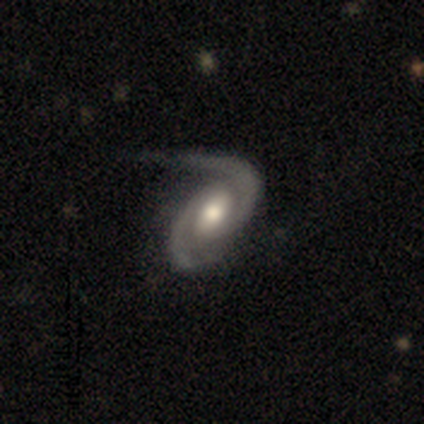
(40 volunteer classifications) A featured or disk galaxy (92%) with a weak bar (49%), 2 (95%) medium (54%) spiral arms (100%) and a moderate central bulge (68%). Merging: none (42%).